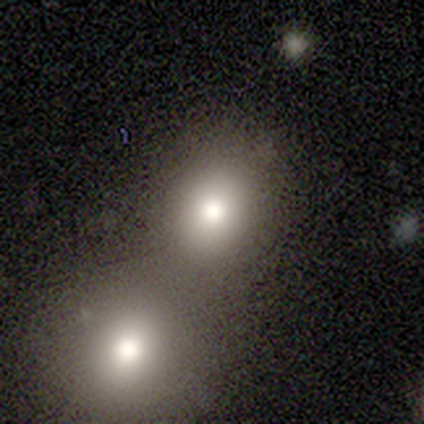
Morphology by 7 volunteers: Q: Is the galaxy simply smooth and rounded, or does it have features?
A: smooth — 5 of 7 (71%).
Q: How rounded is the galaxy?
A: round — 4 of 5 (80%).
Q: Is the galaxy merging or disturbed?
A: merger — 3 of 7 (43%).